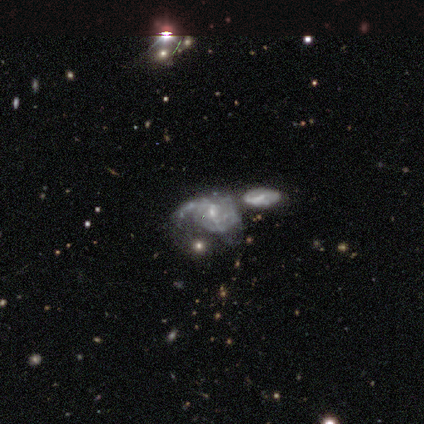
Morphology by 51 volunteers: smooth_or_featured: featured or disk (p=0.82) [alt: smooth p=0.10]
disk_edge_on: no (p=1.00)
bar: no (p=0.62) [alt: weak p=0.29]
has_spiral_arms: yes (p=0.76) [alt: no p=0.24]
spiral_winding: medium (p=0.44) [alt: tight p=0.38]
spiral_arm_count: can't tell (p=0.56) [alt: 2 p=0.22]
bulge_size: small (p=0.71) [alt: moderate p=0.29]
merging: merger (p=0.53) [alt: minor disturbance p=0.17]